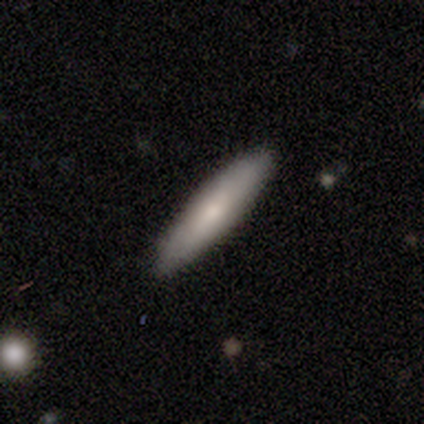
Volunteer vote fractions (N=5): Morphology: type=smooth (80%); roundness=cigar-shaped (75%); merging=none (100%).